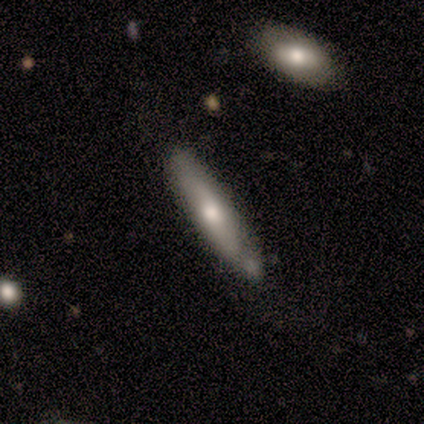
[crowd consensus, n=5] Volunteers were most divided on "smooth or featured": smooth: 60%, featured or disk: 40%, star or artifact: 0%. More confident: how rounded — cigar-shaped (100%); merging — none (60%).